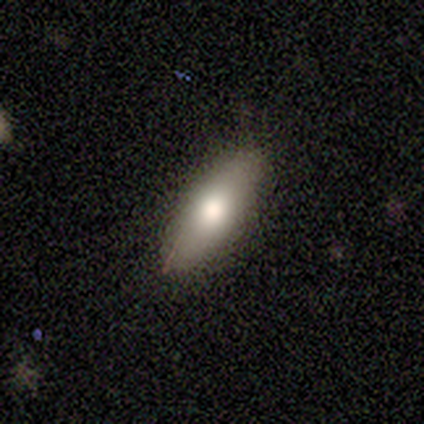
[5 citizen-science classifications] Smooth or featured: smooth — 80% (star or artifact — 20%)
How rounded: in between — 50% (tied with cigar-shaped — 50%)
Merging: none — 100%